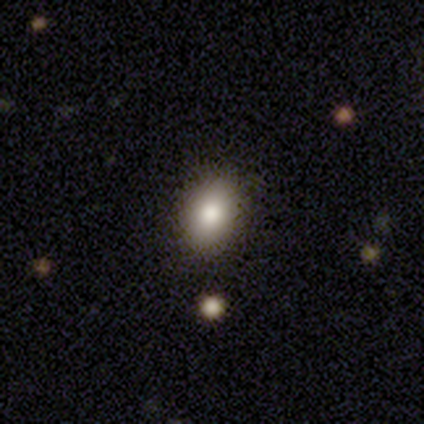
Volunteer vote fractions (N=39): smooth-or-featured: smooth: 77% | star or artifact: 18% | featured or disk: 5%
  how-rounded: in between: 83% | round: 17% | cigar-shaped: 0%
  merging: none: 91% | minor disturbance: 6% | major disturbance: 3% | merger: 0%